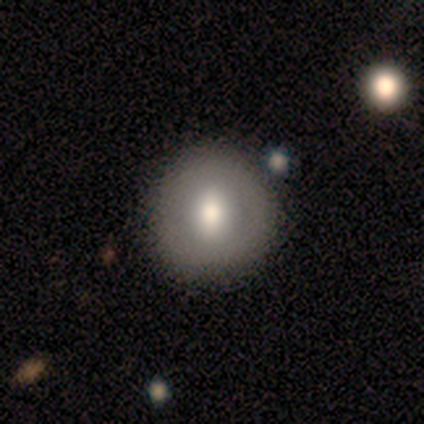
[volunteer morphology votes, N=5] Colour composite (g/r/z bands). It shows a smooth galaxy with no disk features (60%) that is round (100%). Merging: none (100%).